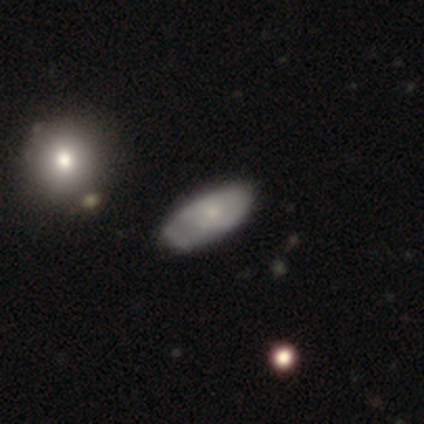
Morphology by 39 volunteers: Smooth or featured?
  - smooth: 62% *
  - featured or disk: 36%
  - star or artifact: 3%
How rounded?
  - in between: 96% *
  - cigar-shaped: 4%
  - round: 0%
Merging?
  - none: 37% *
  - minor disturbance: 29%
  - major disturbance: 5%
  - merger: 3%